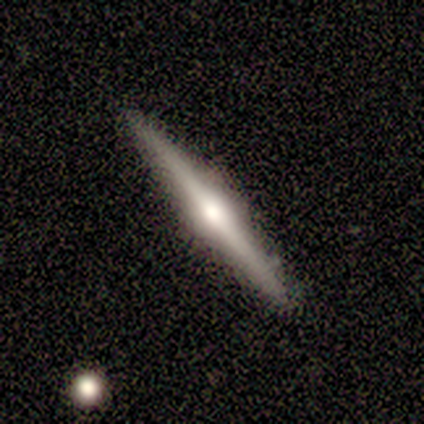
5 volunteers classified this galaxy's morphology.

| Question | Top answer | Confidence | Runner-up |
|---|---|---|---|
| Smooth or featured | featured or disk | 80% | smooth (20%) |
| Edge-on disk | yes | 100% | — |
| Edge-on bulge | rounded | 75% | none (25%) |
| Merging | none | 80% | merger (20%) |